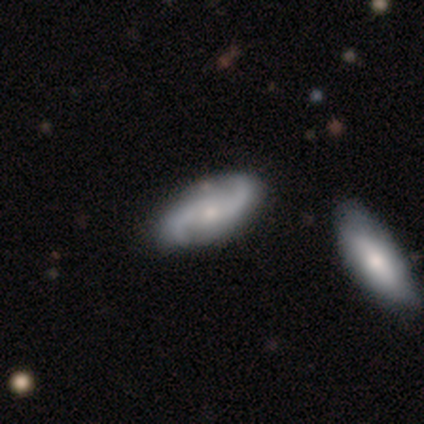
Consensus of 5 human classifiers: Overall: featured or disk (80%). Edge-on disk: no (100%). Bar: weak (50%, tied with no). Spiral arms: yes (100%). Spiral arm count: 2 (100%). Spiral winding: medium (50%, tied with loose). Bulge size: moderate (75%). Merging: none (75%).